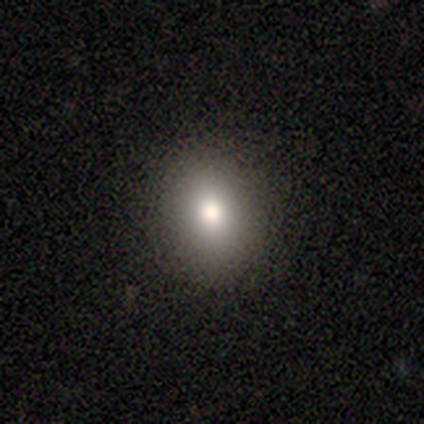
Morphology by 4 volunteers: Q: Smooth or featured?
A: smooth (100%)
Q: How rounded?
A: round (75%); runner-up: in between (25%)
Q: Merging?
A: none (75%); runner-up: minor disturbance (25%)